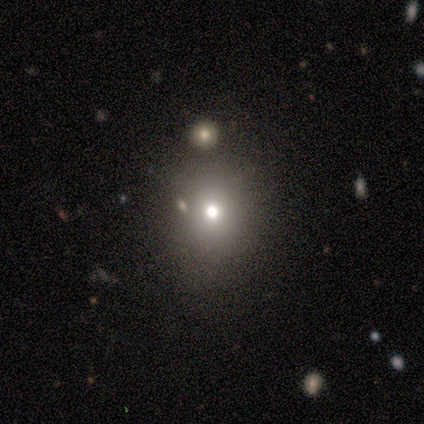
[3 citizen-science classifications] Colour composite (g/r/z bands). It shows a smooth galaxy with no disk features (67%) that is round (50%, tied with in between). Merging: none (50%, tied with minor disturbance).